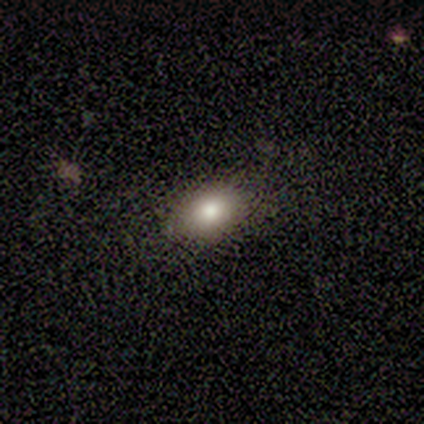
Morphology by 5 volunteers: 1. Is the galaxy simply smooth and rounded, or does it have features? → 80% smooth, 20% star or artifact, 0% featured or disk.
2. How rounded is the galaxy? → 100% in between, 0% round, 0% cigar-shaped.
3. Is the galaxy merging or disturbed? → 100% none, 0% minor disturbance, 0% major disturbance, 0% merger.